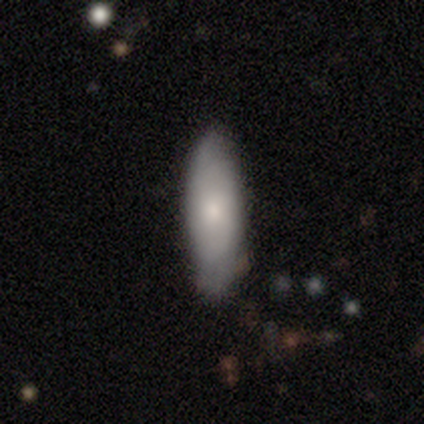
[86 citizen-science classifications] Smooth or featured? 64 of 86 (74%) said smooth. How rounded? 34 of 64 (53%) said cigar-shaped. Merging? 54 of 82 (66%) said none.